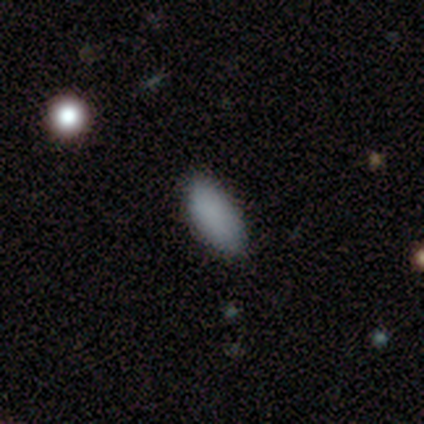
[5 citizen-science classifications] Smooth or featured? 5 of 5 (100%) said smooth. How rounded? 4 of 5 (80%) said in between. Merging? 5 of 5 (100%) said none.